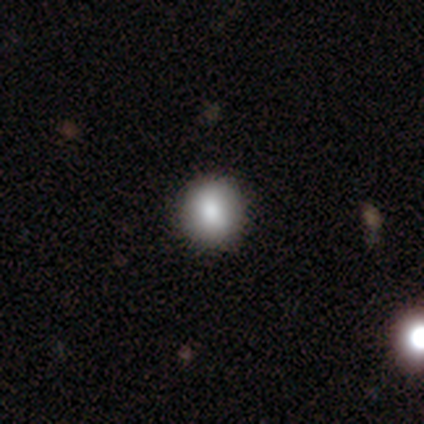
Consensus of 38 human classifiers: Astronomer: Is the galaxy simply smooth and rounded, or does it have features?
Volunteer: smooth — 84%.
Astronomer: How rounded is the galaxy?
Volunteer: round — 78%.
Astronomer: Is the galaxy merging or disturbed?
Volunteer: none — 70%.